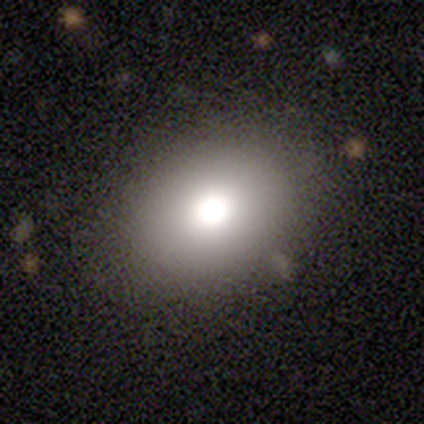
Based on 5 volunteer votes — Smooth or featured?
  - smooth: 60% *
  - featured or disk: 20%
  - star or artifact: 20%
How rounded?
  - in between: 67% *
  - round: 33%
  - cigar-shaped: 0%
Merging?
  - none: 100% *
  - minor disturbance: 0%
  - major disturbance: 0%
  - merger: 0%